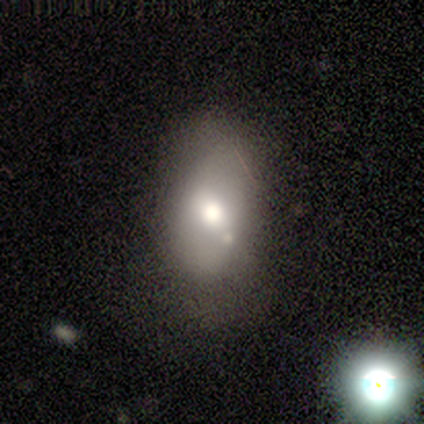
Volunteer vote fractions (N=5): smooth_or_featured: smooth (p=0.40) [tied with: star or artifact p=0.40]
how_rounded: in between (p=1.00)
merging: minor disturbance (p=0.67) [alt: none p=0.33]